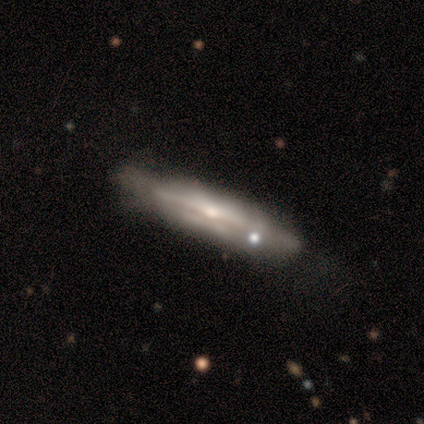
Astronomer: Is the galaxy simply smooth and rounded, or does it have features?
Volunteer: featured or disk — 100%.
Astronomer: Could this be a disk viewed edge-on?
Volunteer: yes — 100%.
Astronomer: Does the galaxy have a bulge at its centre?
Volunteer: boxy — 100%.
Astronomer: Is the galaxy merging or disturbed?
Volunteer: none — 67%.